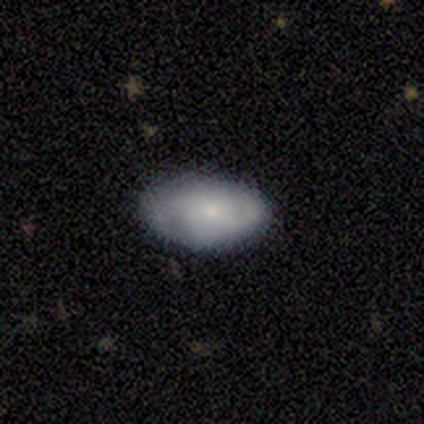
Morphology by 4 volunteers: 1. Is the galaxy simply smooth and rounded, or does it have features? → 75% smooth, 25% featured or disk, 0% star or artifact.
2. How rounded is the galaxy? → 100% in between, 0% round, 0% cigar-shaped.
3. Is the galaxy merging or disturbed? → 100% none, 0% minor disturbance, 0% major disturbance, 0% merger.